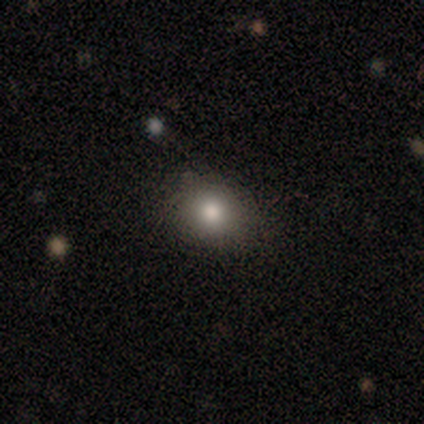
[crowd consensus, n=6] smooth-or-featured: smooth: 83% | featured or disk: 17% | star or artifact: 0%
  how-rounded: round: 100% | in between: 0% | cigar-shaped: 0%
  merging: none: 83% | minor disturbance: 17% | major disturbance: 0% | merger: 0%